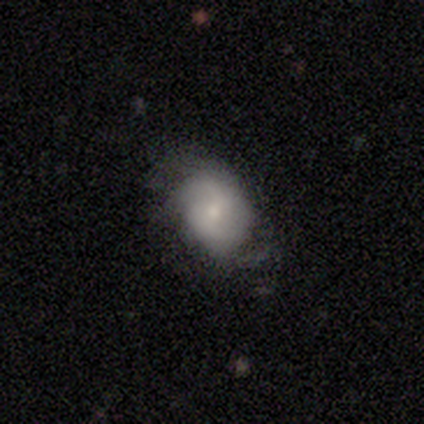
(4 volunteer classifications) Smooth or featured?
  - featured or disk: 75% *
  - smooth: 25%
  - star or artifact: 0%
Edge-on disk?
  - no: 100% *
  - yes: 0%
Bar?
  - no: 100% *
  - strong: 0%
  - weak: 0%
Spiral arms?
  - yes: 100% *
  - no: 0%
Spiral winding?
  - loose: 67% *
  - tight: 33%
  - medium: 0%
Spiral arm count?
  - can't tell: 67% *
  - 2: 33%
  - 1: 0%
  - 3: 0%
  - 4: 0%
  - more than 4: 0%
Bulge size?
  - small: 67% *
  - moderate: 33%
  - dominant: 0%
  - large: 0%
  - none: 0%
Merging?
  - none: 75% *
  - minor disturbance: 25%
  - major disturbance: 0%
  - merger: 0%